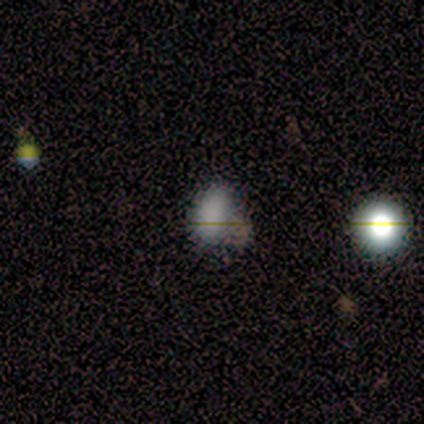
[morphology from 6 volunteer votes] This is clearly a smooth galaxy (83%). How rounded: clearly in between (100%). Merging: clearly none (80%).